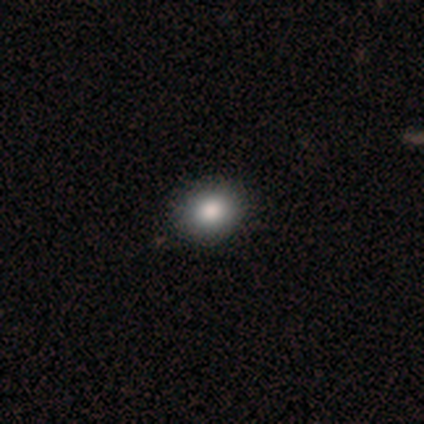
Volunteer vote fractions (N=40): smooth-or-featured: smooth: 90% | featured or disk: 8% | star or artifact: 2%
  how-rounded: round: 67% | in between: 33% | cigar-shaped: 0%
  merging: none: 79% | minor disturbance: 3% | merger: 3% | major disturbance: 0%